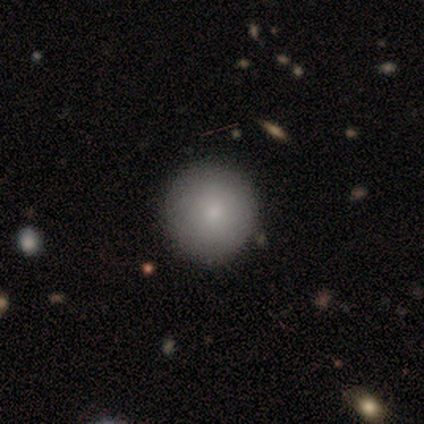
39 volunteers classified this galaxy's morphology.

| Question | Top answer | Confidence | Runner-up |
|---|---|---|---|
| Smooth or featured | smooth | 90% | featured or disk (5%) |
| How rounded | round | 94% | in between (6%) |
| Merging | none | 73% | minor disturbance (3%) |